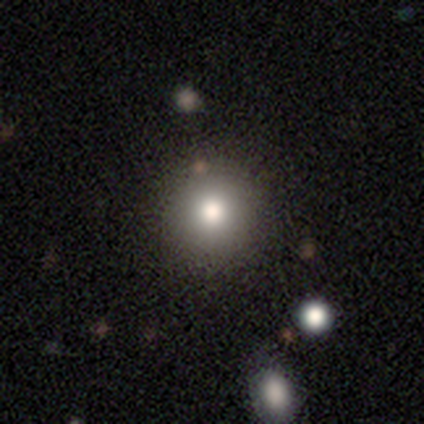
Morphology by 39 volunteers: smooth-or-featured: smooth: 82% | featured or disk: 10% | star or artifact: 8%
  how-rounded: round: 91% | in between: 6% | cigar-shaped: 3%
  merging: none: 64% | minor disturbance: 8% | merger: 8% | major disturbance: 0%